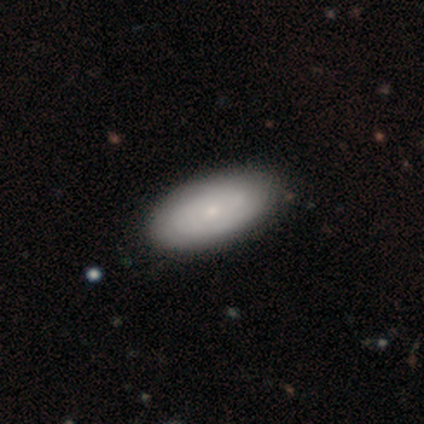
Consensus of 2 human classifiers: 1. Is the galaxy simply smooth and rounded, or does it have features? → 50% smooth (tied), 50% featured or disk (tied), 0% star or artifact.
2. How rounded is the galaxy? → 100% in between, 0% round, 0% cigar-shaped.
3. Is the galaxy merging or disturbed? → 100% none, 0% minor disturbance, 0% major disturbance, 0% merger.